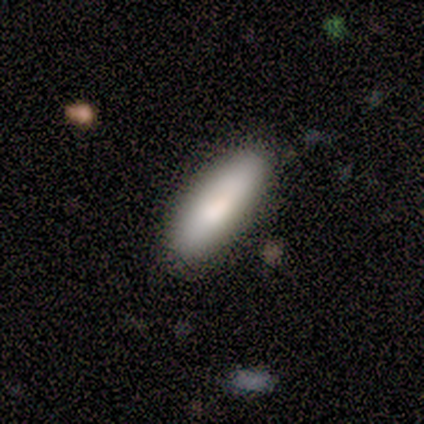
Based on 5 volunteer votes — Smooth or featured?
  - smooth: 100% *
  - featured or disk: 0%
  - star or artifact: 0%
How rounded?
  - in between: 60% *
  - cigar-shaped: 40%
  - round: 0%
Merging?
  - none: 80% *
  - major disturbance: 20%
  - minor disturbance: 0%
  - merger: 0%